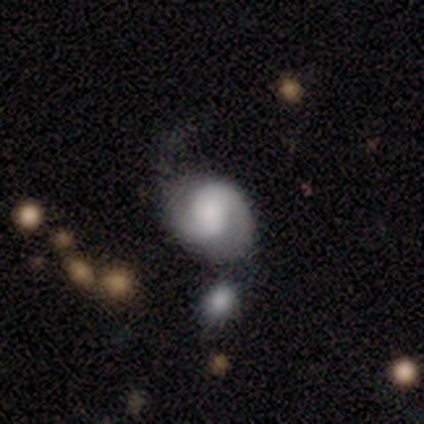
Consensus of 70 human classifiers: This appears to be a featured or disk galaxy (79%) with no bar (53%), 2 (78%) medium (46%) spiral arms (98%) and a large central bulge (33%). Merging: none (33%).